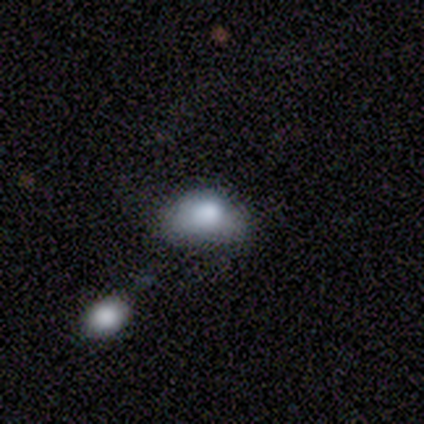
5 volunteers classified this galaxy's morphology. A smooth galaxy with no disk features (100%) that is in between round and cigar-shaped (60%). Merging: none (60%).